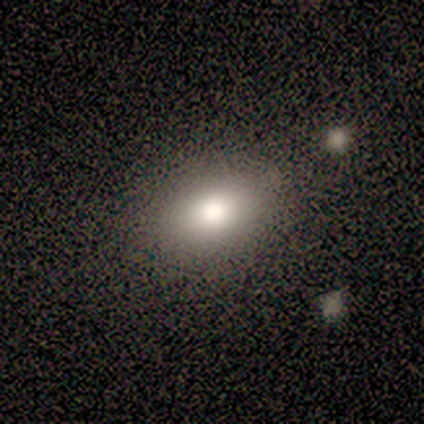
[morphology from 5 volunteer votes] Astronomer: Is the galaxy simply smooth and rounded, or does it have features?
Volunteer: smooth — 80%.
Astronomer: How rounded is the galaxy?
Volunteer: in between — 75%.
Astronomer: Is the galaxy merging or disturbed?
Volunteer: none — 100%.